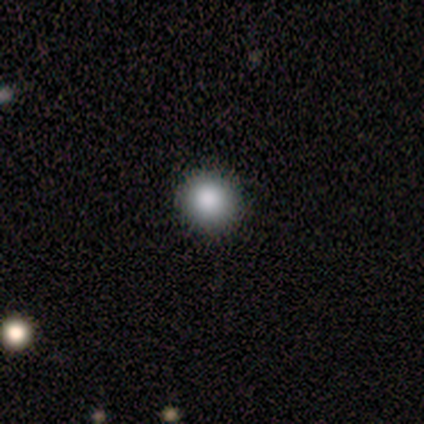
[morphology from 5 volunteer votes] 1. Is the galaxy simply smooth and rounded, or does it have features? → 80% smooth, 20% star or artifact, 0% featured or disk.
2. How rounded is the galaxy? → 75% round, 25% in between, 0% cigar-shaped.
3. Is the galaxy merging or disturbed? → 100% none, 0% minor disturbance, 0% major disturbance, 0% merger.